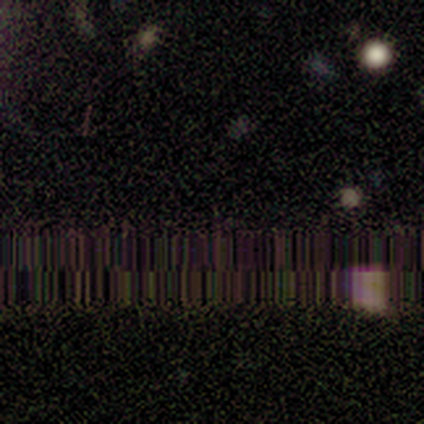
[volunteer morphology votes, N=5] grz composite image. It shows a star or artifact, not a galaxy (100%).